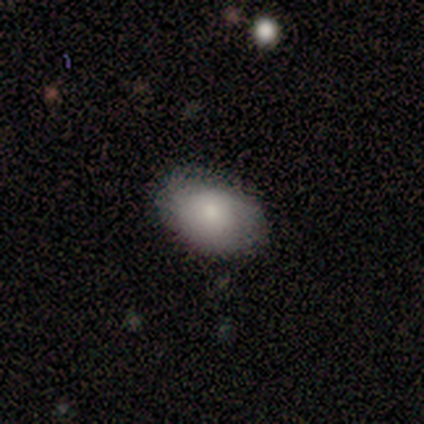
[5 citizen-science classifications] This appears to be a smooth galaxy with no disk features (60%) that is in between round and cigar-shaped (100%). Merging: none (60%).